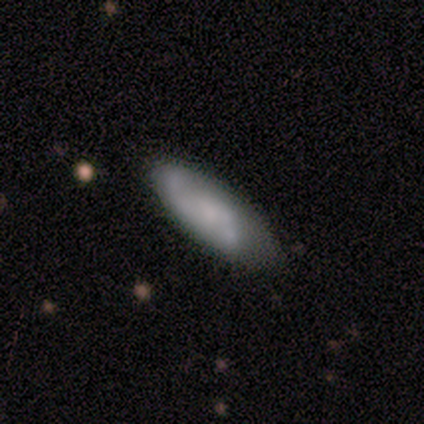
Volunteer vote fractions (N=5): smooth 60%, featured or disk 40%, star or artifact 0%. Down the decision tree: how rounded — in between (67%); merging — none (80%).